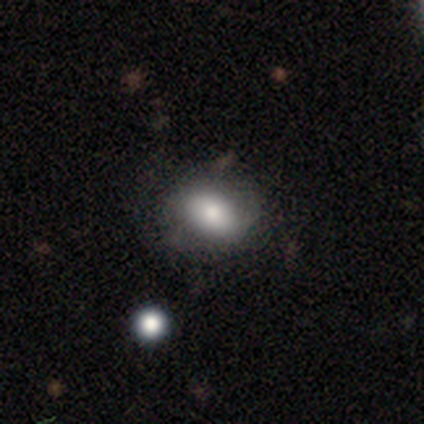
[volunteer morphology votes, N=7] Volunteers were most divided on "how rounded" (2-way tie): round: 50%, in between: 50%, cigar-shaped: 0%. More confident: smooth or featured — smooth (86%); merging — none (71%).